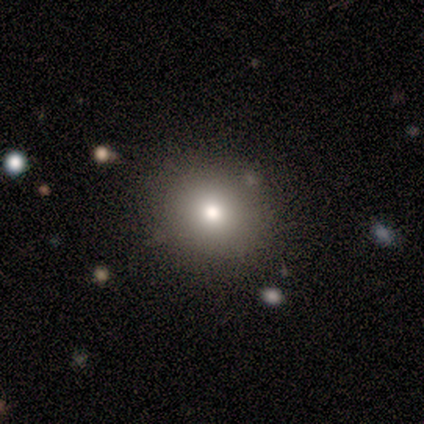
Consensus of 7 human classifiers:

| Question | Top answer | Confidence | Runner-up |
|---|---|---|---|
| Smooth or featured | smooth | 57% | star or artifact (43%) |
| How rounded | round | 100% | — |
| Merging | none | 75% | minor disturbance (25%) |